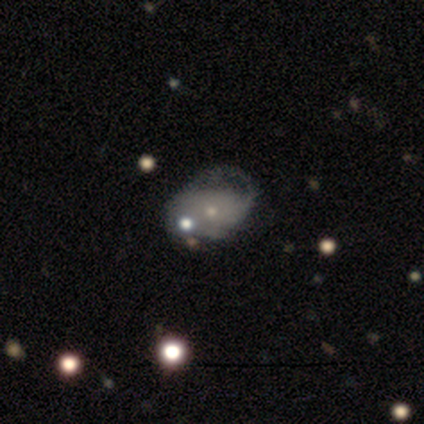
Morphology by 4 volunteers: Volunteers were most divided on "smooth or featured": star or artifact: 50%, smooth: 25%, featured or disk: 25%.